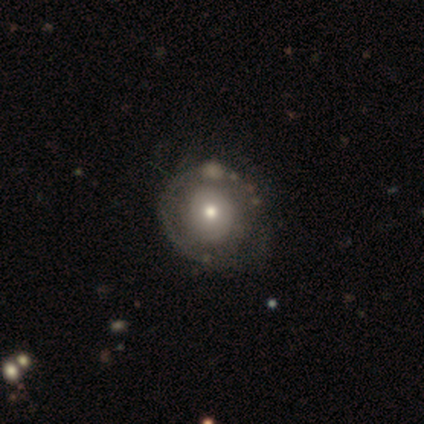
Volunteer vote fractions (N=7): Overall: featured or disk (86%). Edge-on disk: no (100%). Bar: no (100%). Spiral arms: no (83%). Bulge size: small (50%; moderate 33%). Merging: none (86%).